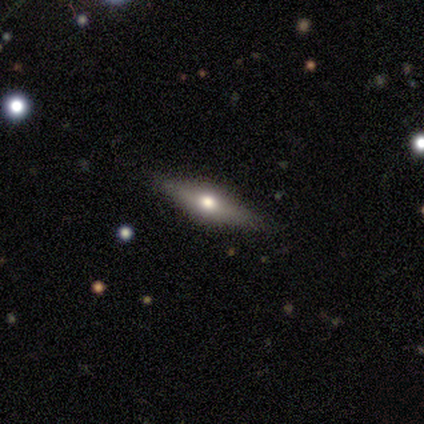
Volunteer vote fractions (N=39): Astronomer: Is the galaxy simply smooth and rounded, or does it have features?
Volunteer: featured or disk — 69%.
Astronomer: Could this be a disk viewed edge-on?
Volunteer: yes — 96%.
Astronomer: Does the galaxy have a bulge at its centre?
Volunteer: rounded — 100%.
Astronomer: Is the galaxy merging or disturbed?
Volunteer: none — 95%.